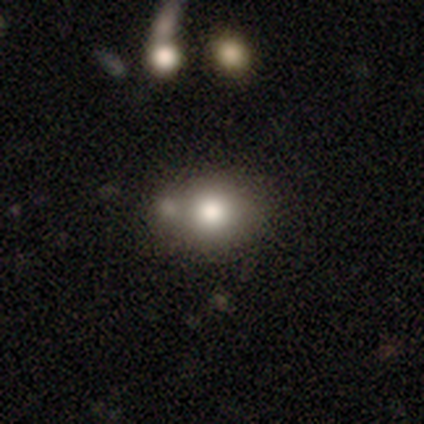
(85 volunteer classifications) This is likely a smooth galaxy (73%). How rounded: possibly round (55%). Merging: possibly none (46%).